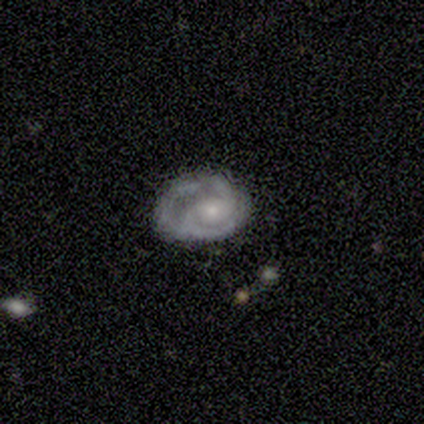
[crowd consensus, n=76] Smooth or featured? 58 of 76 (76%) said featured or disk. Edge-on disk? 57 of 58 (98%) said no. Bar? 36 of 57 (63%) said no. Spiral arms? 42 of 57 (74%) said yes. Spiral winding? 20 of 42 (48%) said tight. Spiral arm count? 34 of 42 (81%) said 2. Bulge size? 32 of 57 (56%) said small. Merging? 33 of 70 (47%) said none.